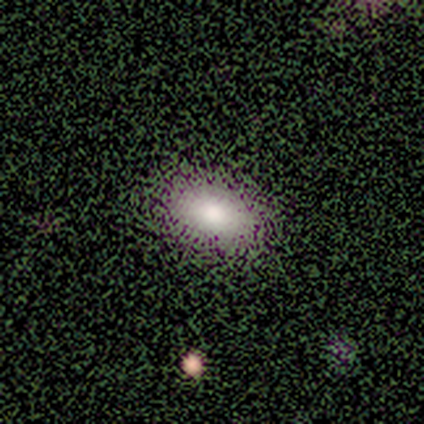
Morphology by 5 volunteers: A smooth galaxy with no disk features (80%) that is in between round and cigar-shaped (100%). Merging: none (75%).